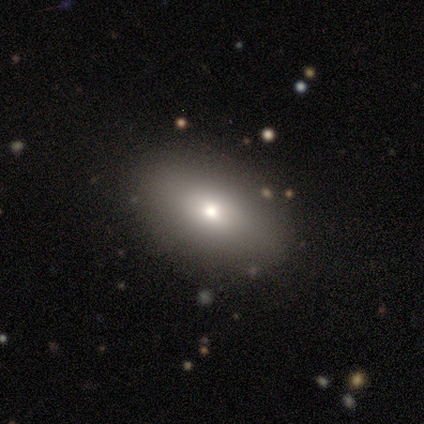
Q: Smooth or featured?
A: smooth (84%); runner-up: featured or disk (8%)
Q: How rounded?
A: in between (88%); runner-up: round (6%)
Q: Merging?
A: none (86%); runner-up: minor disturbance (9%)